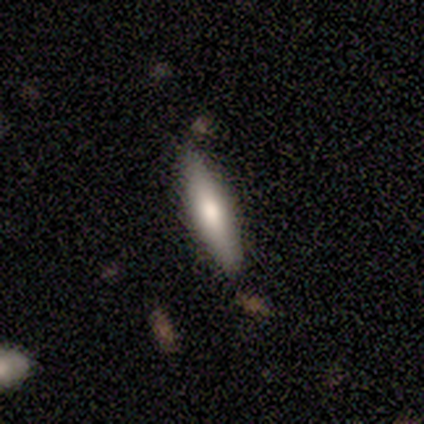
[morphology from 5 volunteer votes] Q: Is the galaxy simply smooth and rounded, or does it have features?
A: smooth — 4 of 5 (80%).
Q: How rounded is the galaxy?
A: in between — 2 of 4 (50%, tied with cigar-shaped).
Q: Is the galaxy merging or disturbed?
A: none — 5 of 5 (100%).